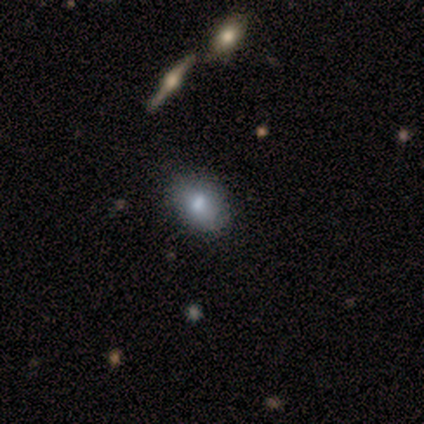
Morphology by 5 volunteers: type=smooth (60%); roundness=in between (100%); merging=none (100%).